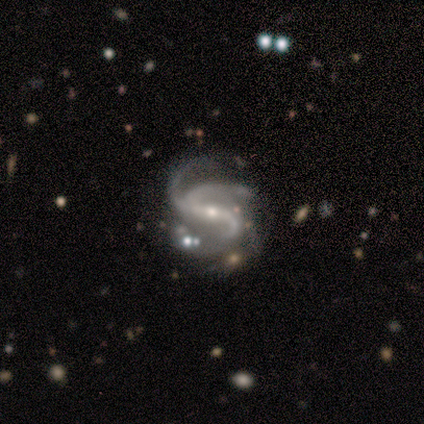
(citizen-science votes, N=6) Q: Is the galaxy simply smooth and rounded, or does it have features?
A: featured or disk — 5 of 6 (83%).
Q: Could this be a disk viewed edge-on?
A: no — 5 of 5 (100%).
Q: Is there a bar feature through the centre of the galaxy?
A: weak — 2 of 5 (40%, tied with no).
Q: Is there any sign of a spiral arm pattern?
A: yes — 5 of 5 (100%).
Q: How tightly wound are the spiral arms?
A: medium — 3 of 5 (60%).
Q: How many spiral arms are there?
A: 3 — 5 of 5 (100%).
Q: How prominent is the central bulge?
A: small — 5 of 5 (100%).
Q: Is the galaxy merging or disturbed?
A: major disturbance — 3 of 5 (60%).